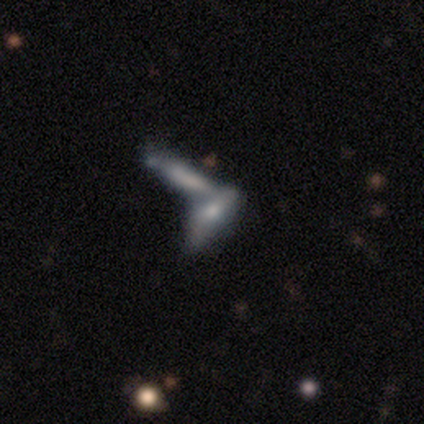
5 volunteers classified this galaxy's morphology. This appears to be a smooth galaxy with no disk features (80%) that is cigar-shaped (100%). Merging: merger (80%).